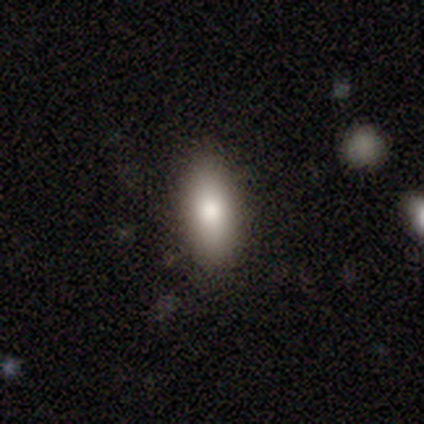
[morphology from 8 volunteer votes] This appears to be a smooth galaxy with no disk features (88%) that is in between round and cigar-shaped (86%). Merging: none (100%).